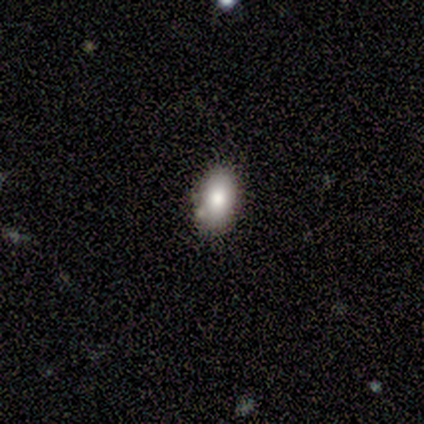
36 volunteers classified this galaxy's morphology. Smooth or featured? smooth (78%)
How rounded? in between (89%)
Merging? none (83%)